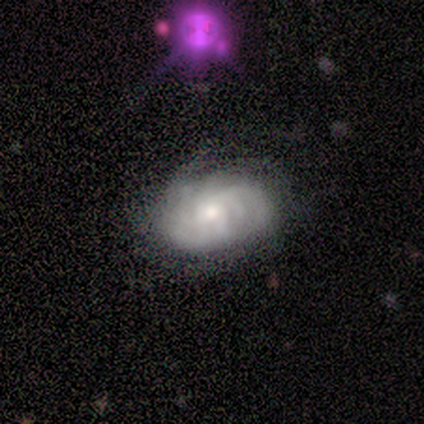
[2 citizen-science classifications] Smooth or featured: smooth — 50% (tied with featured or disk — 50%)
How rounded: in between — 100%
Merging: none — 50% (tied with minor disturbance — 50%)